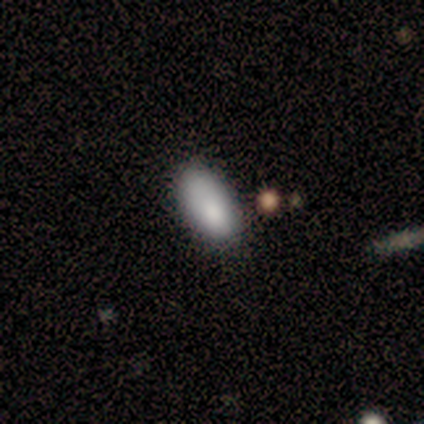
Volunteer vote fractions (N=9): This appears to be a smooth galaxy with no disk features (89%) that is in between round and cigar-shaped (88%). Merging: none (44%, tied with minor disturbance).